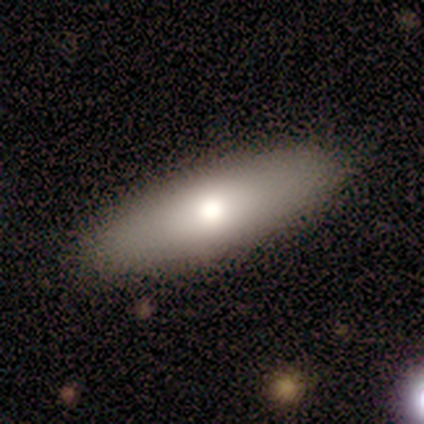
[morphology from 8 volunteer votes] smooth 62%, featured or disk 38%, star or artifact 0%. Down the decision tree: how rounded — cigar-shaped (60%); merging — none (100%).